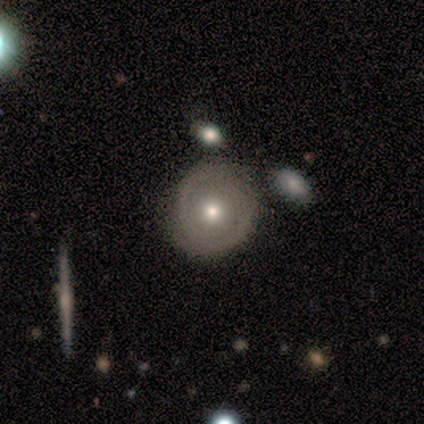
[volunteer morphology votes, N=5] featured or disk 60%, smooth 40%, star or artifact 0%. Down the decision tree: edge-on disk — no (100%); bar — no (100%); spiral arms — no (100%); bulge size — moderate (67%); merging — none (80%).